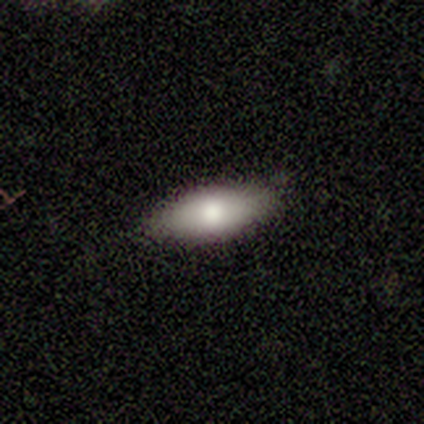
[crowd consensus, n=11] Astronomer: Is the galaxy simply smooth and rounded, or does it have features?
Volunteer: smooth — 82%.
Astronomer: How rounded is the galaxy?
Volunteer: in between — 100%.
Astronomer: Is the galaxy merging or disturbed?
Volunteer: none — 82%.